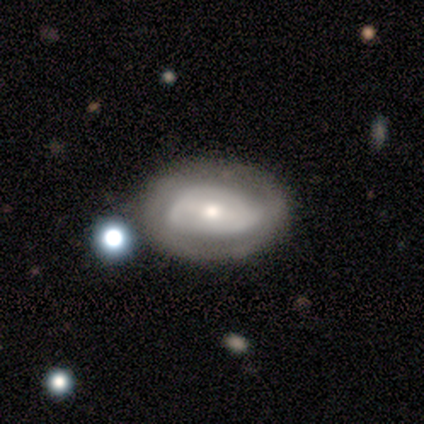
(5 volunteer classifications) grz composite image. It shows a featured or disk galaxy (80%) with a weak bar (67%), 3 (50%, tied with can't tell) tight (100%) spiral arms (67%) and a small central bulge (67%). Merging: none (40%, tied with minor disturbance).